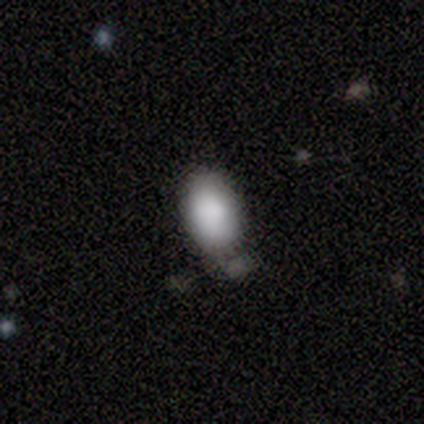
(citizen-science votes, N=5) This is clearly a smooth galaxy (80%). How rounded: clearly in between (100%). Merging: possibly none (50%).